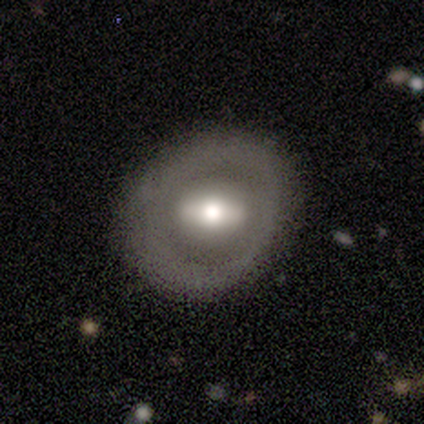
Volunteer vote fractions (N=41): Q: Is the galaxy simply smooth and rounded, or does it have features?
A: featured or disk — 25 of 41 (61%).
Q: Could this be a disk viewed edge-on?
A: no — 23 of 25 (92%).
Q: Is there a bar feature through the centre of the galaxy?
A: strong — 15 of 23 (65%).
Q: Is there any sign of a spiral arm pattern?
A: no — 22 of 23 (96%).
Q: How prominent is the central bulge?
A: moderate — 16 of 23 (70%).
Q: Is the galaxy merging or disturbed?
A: none — 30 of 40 (75%).